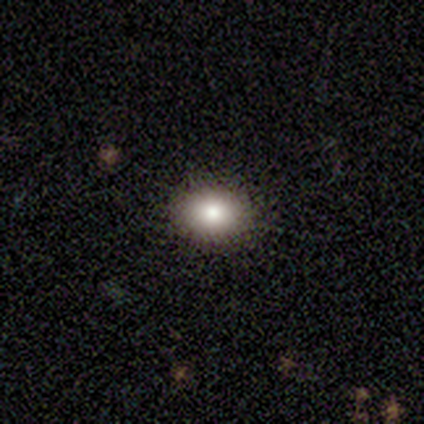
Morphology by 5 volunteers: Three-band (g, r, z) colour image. It shows a smooth galaxy with no disk features (60%) that is round (67%). Merging: none (100%).